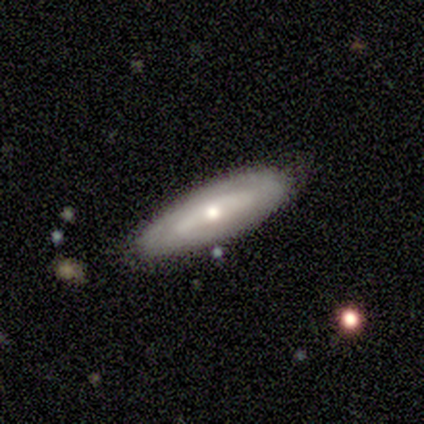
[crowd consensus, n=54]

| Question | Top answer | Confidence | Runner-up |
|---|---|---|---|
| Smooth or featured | featured or disk | 70% | smooth (26%) |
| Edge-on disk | no | 76% | yes (24%) |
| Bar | no | 62% | weak (24%) |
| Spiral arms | yes | 66% | no (34%) |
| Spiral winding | tight | 58% | medium (26%) |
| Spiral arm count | can't tell | 63% | 2 (32%) |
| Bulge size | moderate | 62% | small (31%) |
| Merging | none | 94% | minor disturbance (6%) |